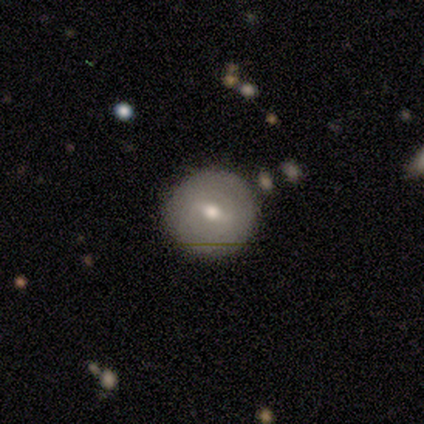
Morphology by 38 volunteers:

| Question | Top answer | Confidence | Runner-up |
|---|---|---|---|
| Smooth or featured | smooth | 53% | featured or disk (42%) |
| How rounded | round | 95% | in between (5%) |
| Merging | none | 92% | minor disturbance (6%) |